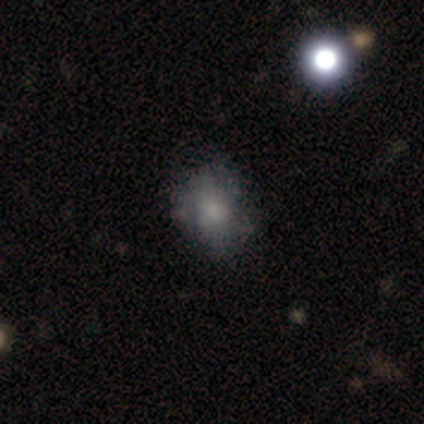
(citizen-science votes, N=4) Smooth or featured? smooth (75%)
How rounded? in between (67%)
Merging? minor disturbance (50%)